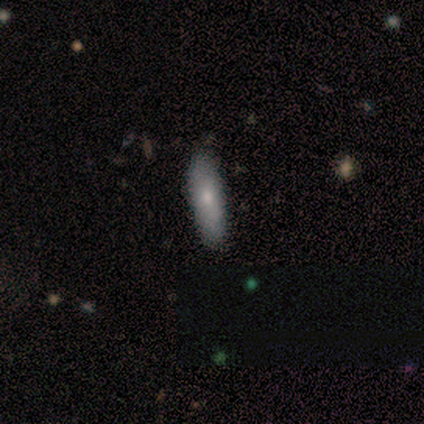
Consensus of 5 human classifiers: Overall: smooth (60%; featured or disk 40%). How rounded: in between (67%; cigar-shaped 33%). Merging: none (80%).